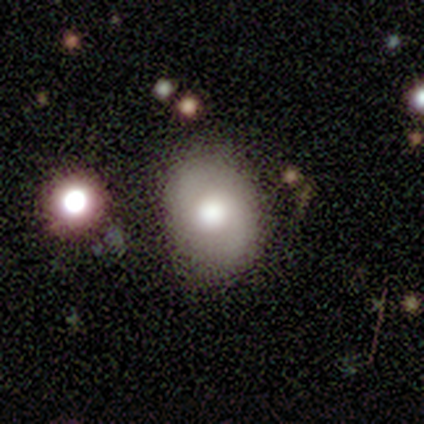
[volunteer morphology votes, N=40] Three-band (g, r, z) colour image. It shows a smooth galaxy with no disk features (68%) that is in between round and cigar-shaped (70%). Merging: none (80%).